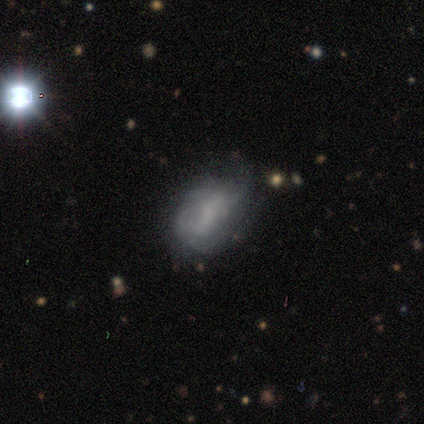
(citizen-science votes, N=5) Smooth or featured?
  - featured or disk: 60% *
  - smooth: 40%
  - star or artifact: 0%
Edge-on disk?
  - no: 100% *
  - yes: 0%
Bar?
  - no: 67% *
  - strong: 33%
  - weak: 0%
Spiral arms?
  - yes: 100% *
  - no: 0%
Spiral winding?
  - tight: 33% * (tied)
  - medium: 33% * (tied)
  - loose: 33% * (tied)
Spiral arm count?
  - 1: 67% *
  - can't tell: 33%
  - 2: 0%
  - 3: 0%
  - 4: 0%
  - more than 4: 0%
Bulge size?
  - small: 67% *
  - moderate: 33%
  - dominant: 0%
  - large: 0%
  - none: 0%
Merging?
  - none: 80% *
  - minor disturbance: 20%
  - major disturbance: 0%
  - merger: 0%